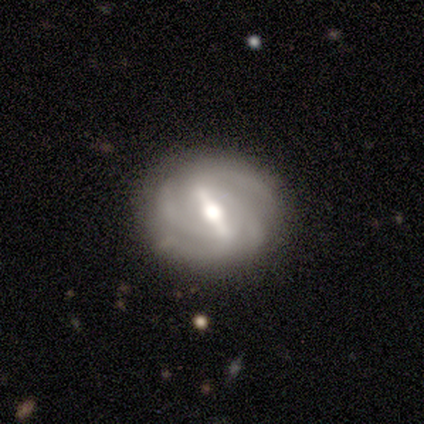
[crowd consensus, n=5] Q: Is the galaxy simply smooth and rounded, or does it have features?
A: featured or disk — 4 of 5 (80%).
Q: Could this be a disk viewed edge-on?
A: no — 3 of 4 (75%).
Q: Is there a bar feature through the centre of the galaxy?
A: strong — 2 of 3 (67%).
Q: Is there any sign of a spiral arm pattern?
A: yes — 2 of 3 (67%).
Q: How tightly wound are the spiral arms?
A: tight — 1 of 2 (50%, tied with medium).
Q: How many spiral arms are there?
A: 3 — 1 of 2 (50%, tied with 4).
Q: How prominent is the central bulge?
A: moderate — 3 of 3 (100%).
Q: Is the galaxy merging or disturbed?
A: none — 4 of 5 (80%).